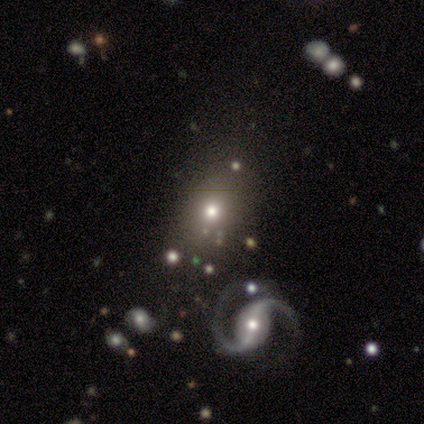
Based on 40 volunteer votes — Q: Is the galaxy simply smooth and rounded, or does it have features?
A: smooth — 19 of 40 (48%).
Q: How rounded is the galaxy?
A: round — 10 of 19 (53%).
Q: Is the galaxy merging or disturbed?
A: none — 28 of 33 (85%).